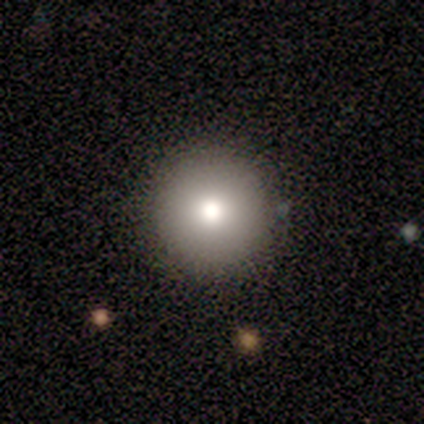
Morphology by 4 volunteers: This appears to be a smooth galaxy with no disk features (75%) that is round (100%). Merging: none (100%).